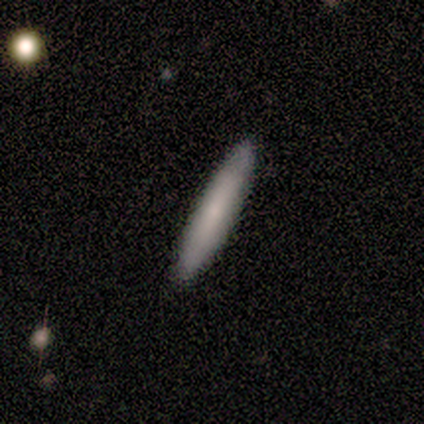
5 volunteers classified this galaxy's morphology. smooth 80%, featured or disk 20%, star or artifact 0%. Down the decision tree: how rounded — cigar-shaped (100%); merging — none (80%).